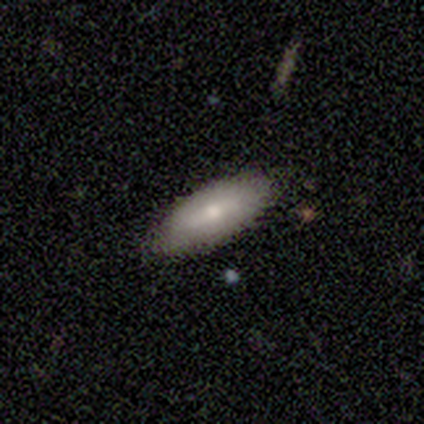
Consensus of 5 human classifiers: Smooth or featured: smooth — 100%
How rounded: in between — 100%
Merging: none — 100%